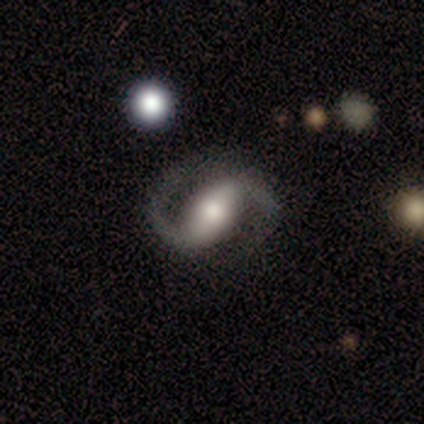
smooth_or_featured: featured or disk (p=0.87) [alt: smooth p=0.07]
disk_edge_on: no (p=1.00)
bar: strong (p=0.54) [alt: weak p=0.46]
has_spiral_arms: yes (p=0.92) [alt: no p=0.08]
spiral_winding: loose (p=0.50) [alt: medium p=0.33]
spiral_arm_count: 2 (p=1.00)
bulge_size: moderate (p=0.77) [alt: large p=0.15]
merging: none (p=0.57) [alt: major disturbance p=0.21]